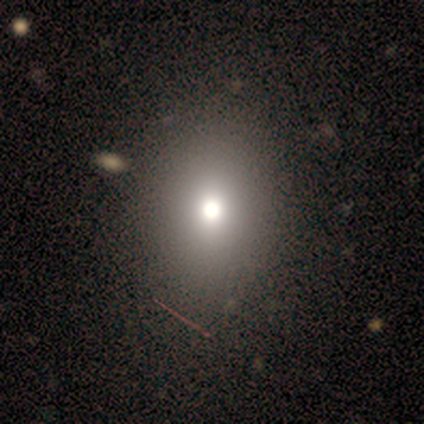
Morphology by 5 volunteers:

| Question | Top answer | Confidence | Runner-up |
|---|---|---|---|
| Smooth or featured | smooth | 80% | star or artifact (20%) |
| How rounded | in between | 75% | round (25%) |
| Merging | none | 100% | — |